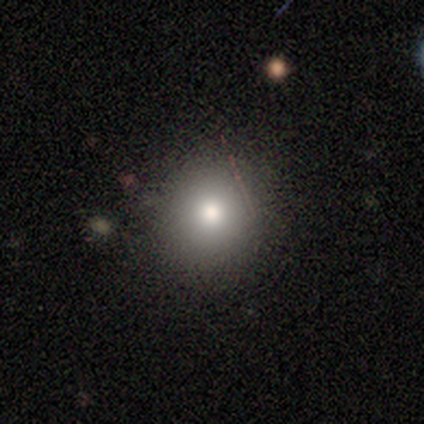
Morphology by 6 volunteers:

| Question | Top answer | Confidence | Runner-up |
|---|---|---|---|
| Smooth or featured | smooth | 83% | star or artifact (17%) |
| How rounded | round | 100% | — |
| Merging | none | 100% | — |